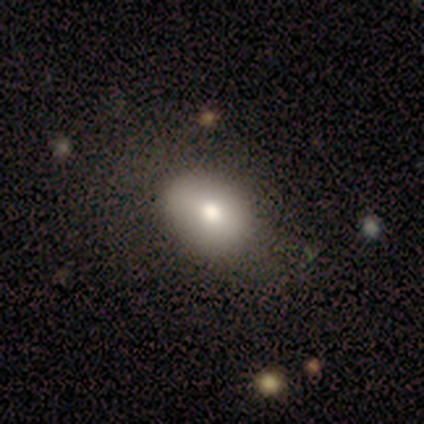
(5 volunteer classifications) This is likely a smooth galaxy (60%). How rounded: likely in between (67%). Merging: likely none (75%).